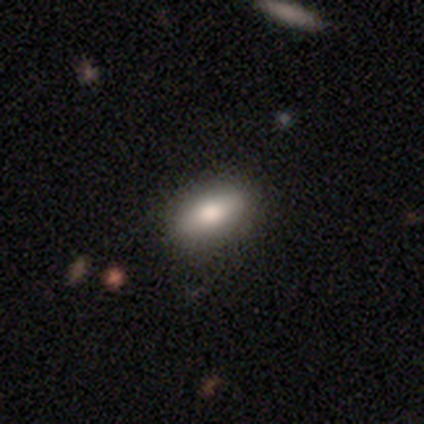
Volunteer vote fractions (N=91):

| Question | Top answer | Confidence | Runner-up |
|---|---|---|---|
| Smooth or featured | smooth | 78% | featured or disk (14%) |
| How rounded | in between | 85% | cigar-shaped (13%) |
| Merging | none | 89% | minor disturbance (7%) |